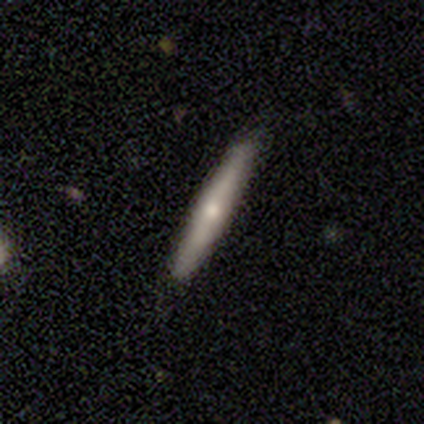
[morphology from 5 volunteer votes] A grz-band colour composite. It shows a featured or disk galaxy (60%) viewed edge-on (100%) with a rounded central bulge (100%). Merging: none (80%).